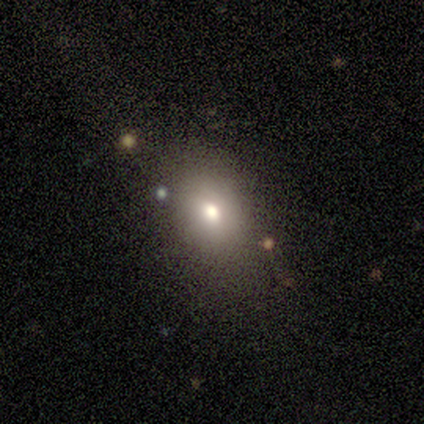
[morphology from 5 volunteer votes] Smooth or featured? smooth (80%)
How rounded? in between (75%)
Merging? none (80%)